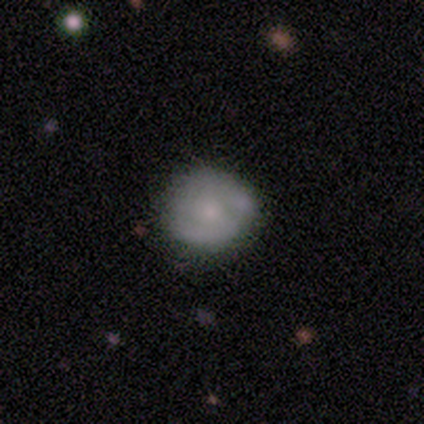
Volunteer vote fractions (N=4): Smooth or featured: smooth — 50% (tied with featured or disk — 50%)
How rounded: round — 50% (tied with in between — 50%)
Merging: none — 50% (tied with minor disturbance — 50%)